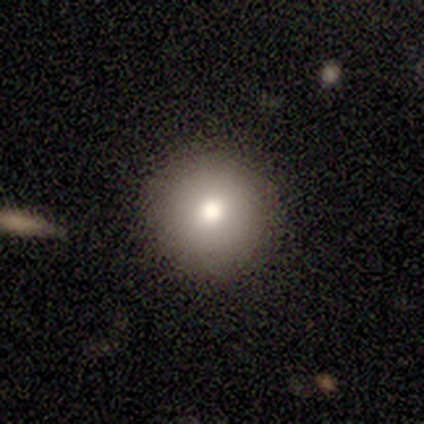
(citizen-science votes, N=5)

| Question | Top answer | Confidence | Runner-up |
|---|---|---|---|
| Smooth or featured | smooth | 80% | featured or disk (20%) |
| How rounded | round | 100% | — |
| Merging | none | 80% | merger (20%) |